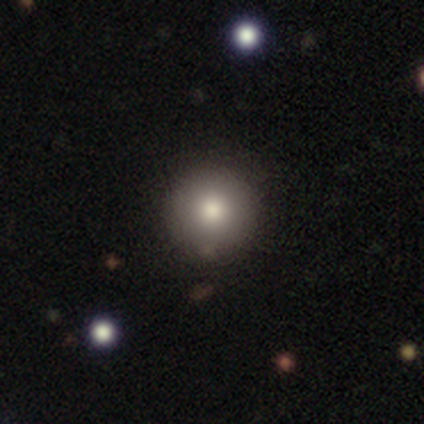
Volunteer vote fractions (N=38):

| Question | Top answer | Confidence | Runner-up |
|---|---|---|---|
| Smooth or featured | smooth | 71% | featured or disk (18%) |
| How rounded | round | 93% | in between (7%) |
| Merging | none | 79% | minor disturbance (18%) |